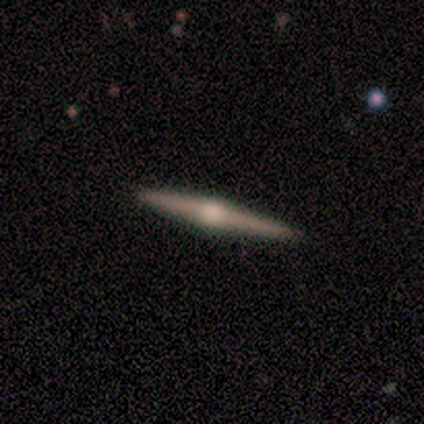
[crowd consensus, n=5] Smooth or featured? 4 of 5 (80%) said featured or disk. Edge-on disk? 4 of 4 (100%) said yes. Edge-on bulge? 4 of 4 (100%) said rounded. Merging? 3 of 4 (75%) said none.